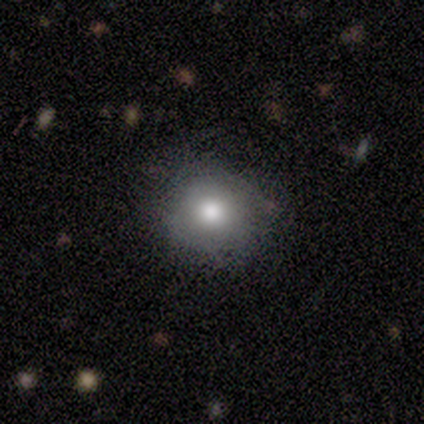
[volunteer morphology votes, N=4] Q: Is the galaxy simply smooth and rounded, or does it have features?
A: smooth — 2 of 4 (50%).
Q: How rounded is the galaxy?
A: round — 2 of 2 (100%).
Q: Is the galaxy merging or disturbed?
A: none — 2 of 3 (67%).